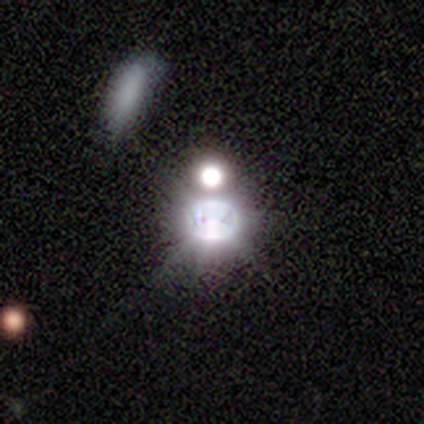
Overall: star or artifact (100%).